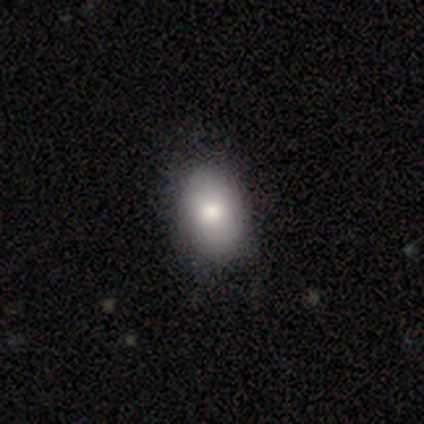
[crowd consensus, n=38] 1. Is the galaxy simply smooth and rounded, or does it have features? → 95% smooth, 3% featured or disk, 3% star or artifact.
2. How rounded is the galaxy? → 86% in between, 14% round, 0% cigar-shaped.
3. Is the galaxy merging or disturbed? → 70% none, 11% minor disturbance, 0% major disturbance, 0% merger.